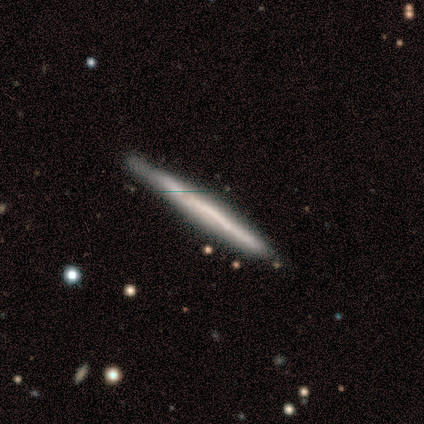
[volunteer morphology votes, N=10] A featured or disk galaxy (60%) viewed edge-on (100%) with no central bulge (67%).

Vote fractions:
- Smooth or featured? featured or disk: 60% / smooth: 40% / star or artifact: 0%
- Edge-on disk? yes: 100% / no: 0%
- Edge-on bulge? none: 67% / rounded: 33% / boxy: 0%
- Merging? none: 90% / minor disturbance: 10% / major disturbance: 0% / merger: 0%